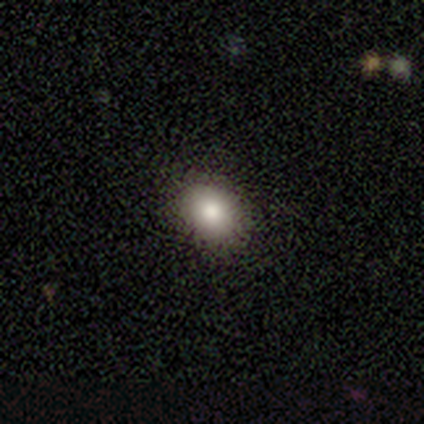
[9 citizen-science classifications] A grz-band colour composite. It shows a smooth galaxy with no disk features (100%) that is in between round and cigar-shaped (56%). Merging: none (100%).